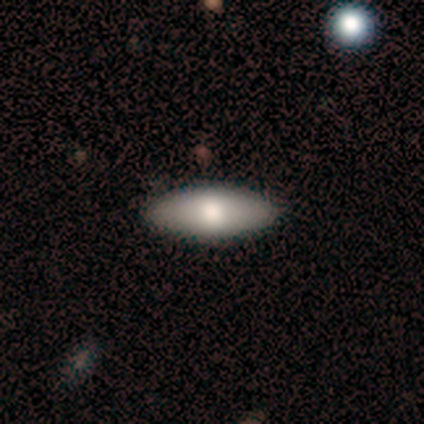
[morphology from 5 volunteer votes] A smooth galaxy with no disk features (100%) that is in between round and cigar-shaped (80%). Merging: none (100%).